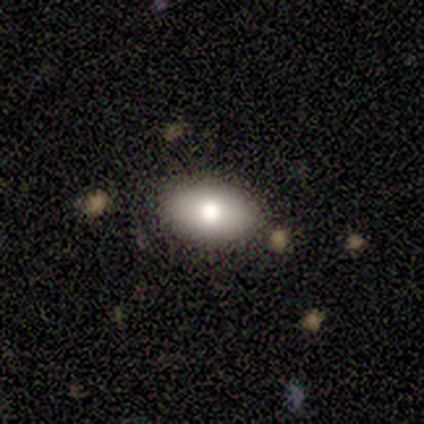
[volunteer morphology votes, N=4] type=smooth (50%); roundness=in between (100%); merging=none (67%).